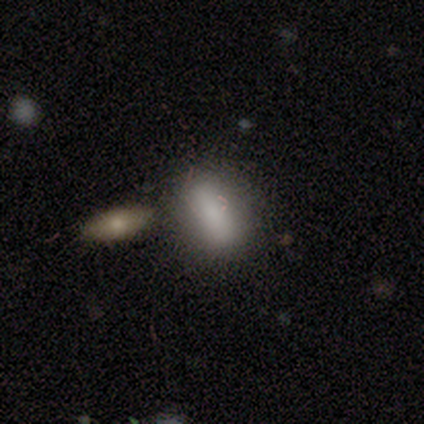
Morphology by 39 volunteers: Smooth or featured: smooth — 85% (featured or disk — 13%)
How rounded: in between — 76% (cigar-shaped — 18%)
Merging: none — 79% (merger — 11%)